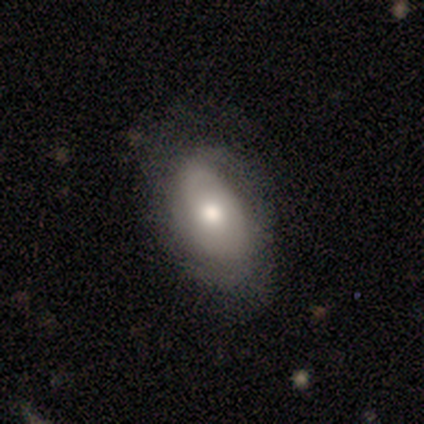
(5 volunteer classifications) Morphology: type=featured or disk (80%); edge-on=no (100%); bar=no (75%); spiral arms=yes (100%); winding=tight (50%, tied with medium); arm count=2 (75%); bulge=moderate (75%); merging=none (100%).